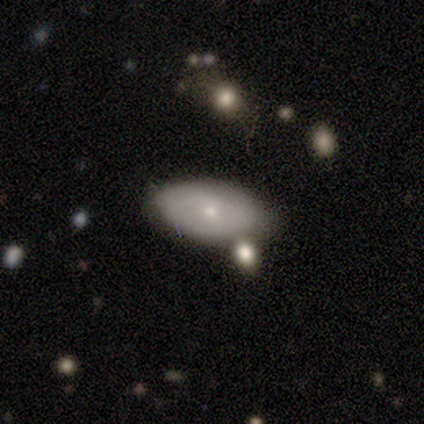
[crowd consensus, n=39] A smooth galaxy with no disk features (51%) that is in between round and cigar-shaped (100%). Merging: none (57%).